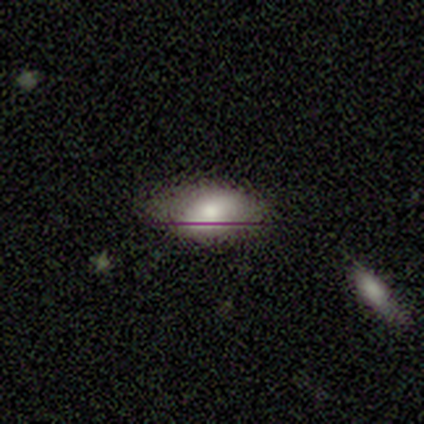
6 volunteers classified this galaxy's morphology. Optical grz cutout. It shows a smooth galaxy with no disk features (67%) that is in between round and cigar-shaped (75%). Merging: none (80%).